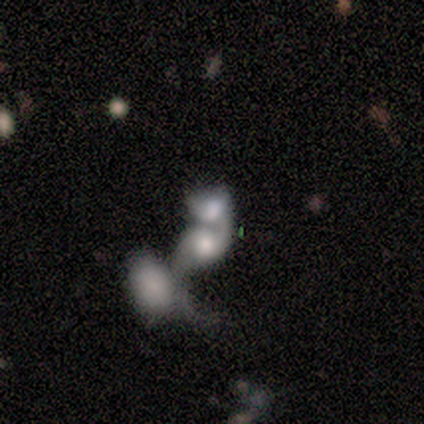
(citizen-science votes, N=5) Smooth or featured: star or artifact — 60% (featured or disk — 40%)